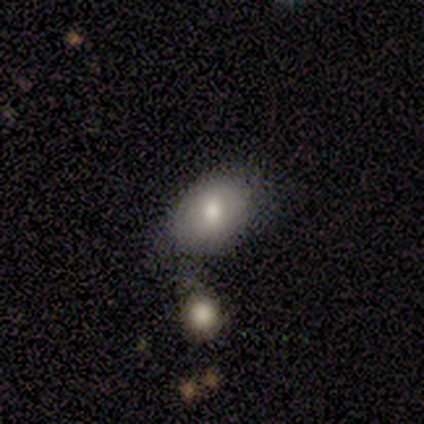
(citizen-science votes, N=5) smooth 100%, featured or disk 0%, star or artifact 0%. Down the decision tree: how rounded — in between (100%); merging — none (60%).